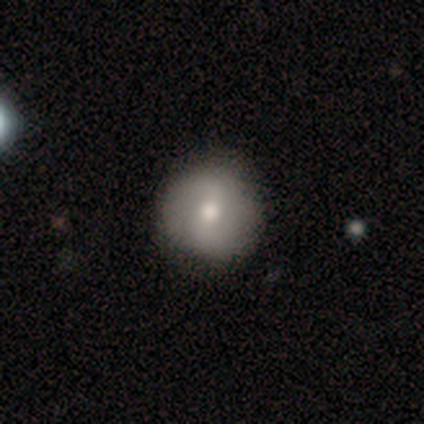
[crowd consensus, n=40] This is possibly a featured or disk galaxy (57%). It is clearly not viewed edge-on (96%). Bar: possibly weak (45%). Spiral arm pattern: possibly yes (55%). Spiral arm count: clearly 2 (92%). Spiral winding: marginally tight (33%, tied with medium and loose). Central bulge: likely moderate (73%). Merging: likely none (69%).